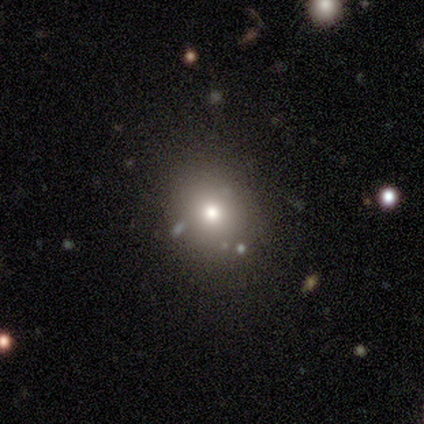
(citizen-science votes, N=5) A smooth galaxy with no disk features (80%) that is round (75%).

Vote fractions:
- Smooth or featured? smooth: 80% / star or artifact: 20% / featured or disk: 0%
- How rounded? round: 75% / in between: 25% / cigar-shaped: 0%
- Merging? none: 100% / minor disturbance: 0% / major disturbance: 0% / merger: 0%